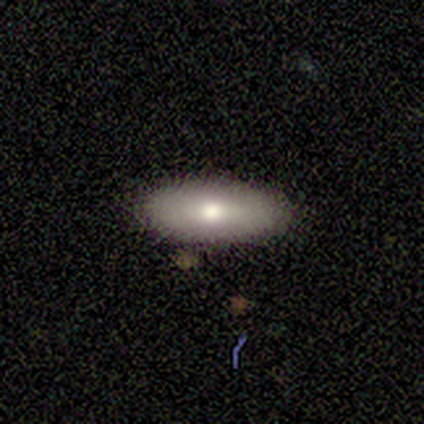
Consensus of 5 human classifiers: Smooth or featured? 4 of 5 (80%) said smooth. How rounded? 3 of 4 (75%) said in between. Merging? 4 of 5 (80%) said none.